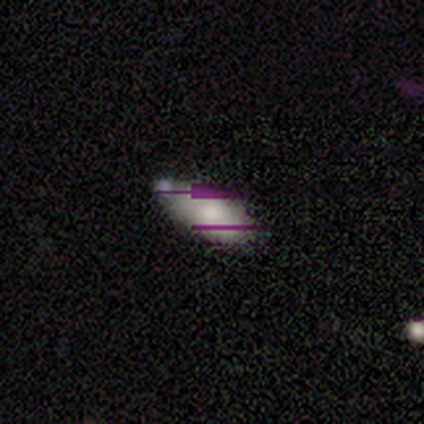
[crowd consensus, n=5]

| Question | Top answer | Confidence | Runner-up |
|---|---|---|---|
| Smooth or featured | smooth | 40% | tied: star or artifact (40%) |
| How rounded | in between | 100% | — |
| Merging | none | 33% | tied: minor disturbance (33%), merger (33%) |